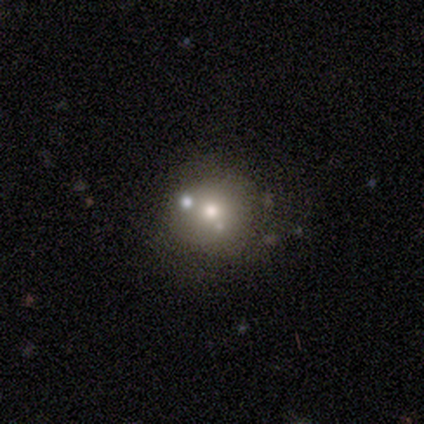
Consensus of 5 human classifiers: Smooth or featured? featured or disk (40%, tied with star or artifact)
Edge-on disk? no (100%)
Bar? no (100%)
Spiral arms? no (100%)
Bulge size? moderate (100%)
Merging? none (67%)